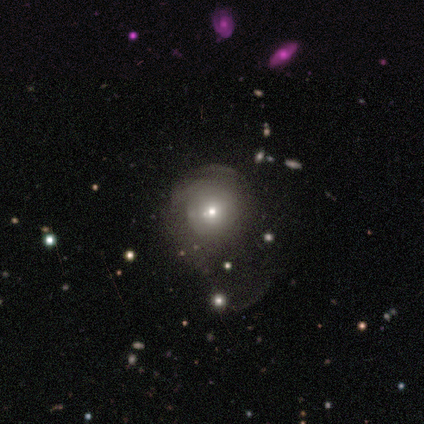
Morphology: type=featured or disk (48%); edge-on=no (100%); bar=no (95%); spiral arms=no (79%); bulge=moderate (58%); merging=major disturbance (46%).